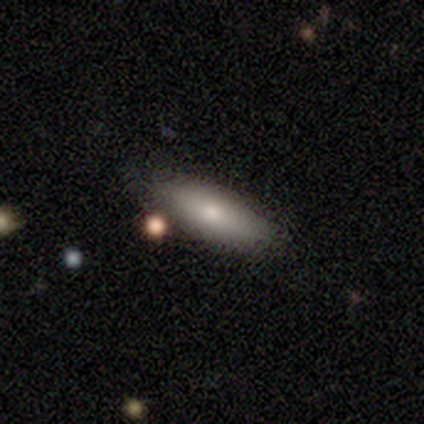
smooth-or-featured: smooth: 60% | star or artifact: 40% | featured or disk: 0%
  how-rounded: in between: 67% | cigar-shaped: 33% | round: 0%
  merging: none: 100% | minor disturbance: 0% | major disturbance: 0% | merger: 0%